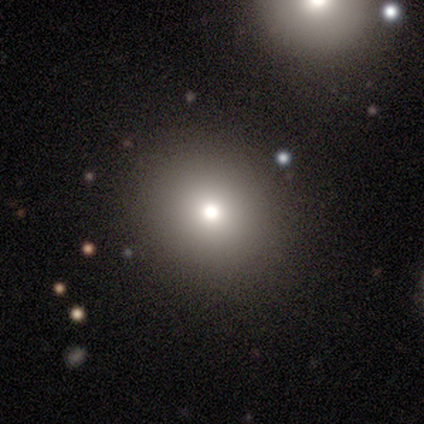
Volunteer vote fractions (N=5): This is clearly a smooth galaxy (80%). How rounded: clearly round (100%). Merging: clearly none (100%).